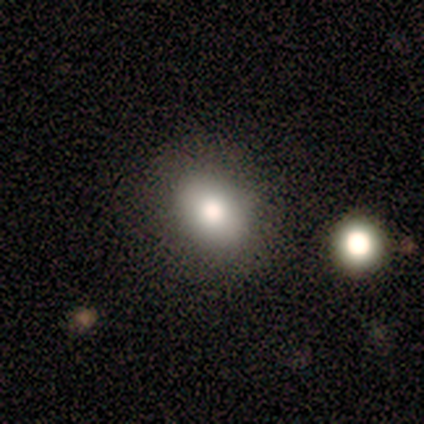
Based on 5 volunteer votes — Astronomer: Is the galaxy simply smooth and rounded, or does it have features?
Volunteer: smooth — 60% (runner-up: featured or disk, 40%).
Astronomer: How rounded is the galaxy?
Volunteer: round — 67%.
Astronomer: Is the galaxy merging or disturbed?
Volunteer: none — 100%.